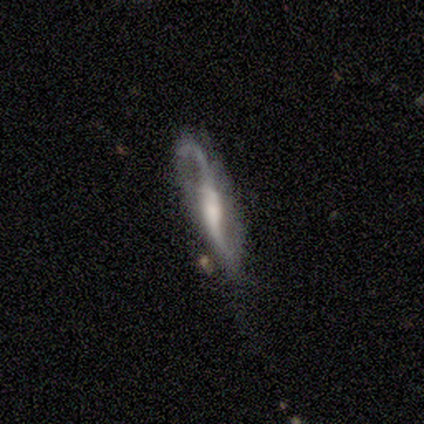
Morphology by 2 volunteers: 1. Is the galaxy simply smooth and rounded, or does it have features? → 50% smooth (tied), 50% featured or disk (tied), 0% star or artifact.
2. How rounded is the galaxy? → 100% cigar-shaped, 0% round, 0% in between.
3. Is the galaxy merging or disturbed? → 50% none (tied), 50% minor disturbance (tied), 0% major disturbance, 0% merger.